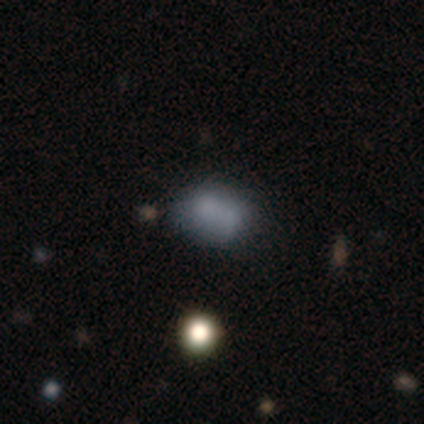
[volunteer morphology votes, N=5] A smooth galaxy with no disk features (80%) that is round (75%).

Vote fractions:
- Smooth or featured? smooth: 80% / featured or disk: 20% / star or artifact: 0%
- How rounded? round: 75% / in between: 25% / cigar-shaped: 0%
- Merging? major disturbance: 40% (tied) / merger: 40% (tied) / none: 20% / minor disturbance: 0%